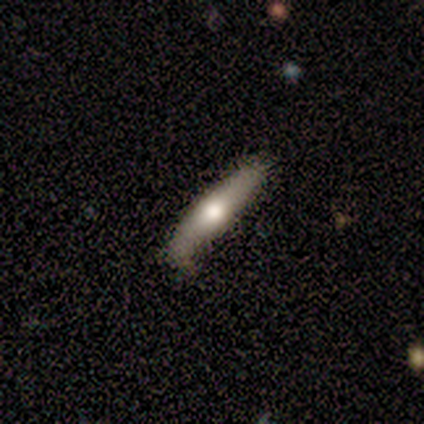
Smooth or featured? 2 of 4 (50%, tied with featured or disk) said smooth. How rounded? 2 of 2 (100%) said cigar-shaped. Merging? 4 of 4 (100%) said none.